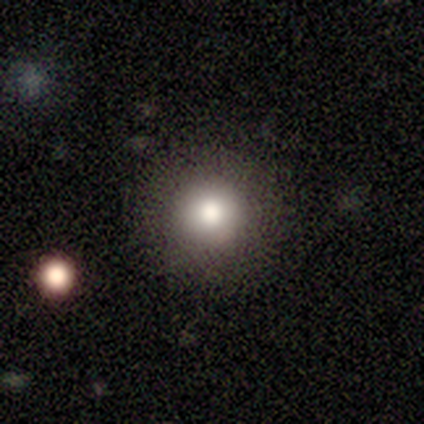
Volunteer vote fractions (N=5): This is likely a smooth galaxy (60%). How rounded: clearly round (100%). Merging: clearly none (100%).